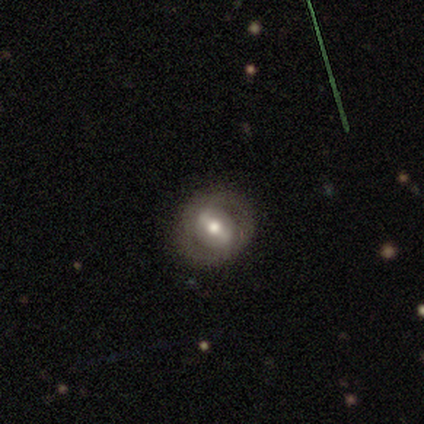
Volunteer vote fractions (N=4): smooth 50% (tied), featured or disk 50% (tied), star or artifact 0%. Down the decision tree: how rounded — round (100%); merging — none (75%).